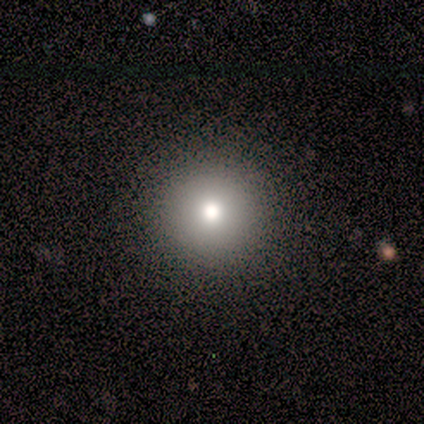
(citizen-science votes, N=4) This appears to be a smooth galaxy with no disk features (100%) that is round (100%). Merging: none (100%).